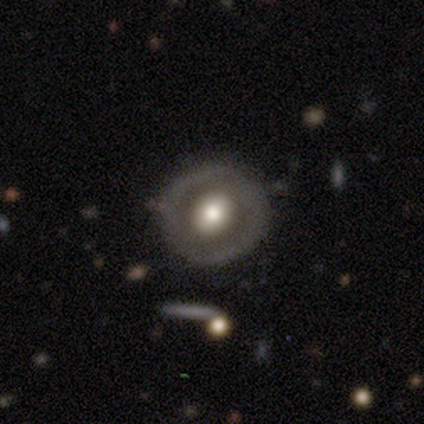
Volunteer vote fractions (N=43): Q: Smooth or featured?
A: featured or disk (53%); runner-up: smooth (42%)
Q: Edge-on disk?
A: no (100%)
Q: Bar?
A: no (57%); runner-up: weak (39%)
Q: Spiral arms?
A: no (83%); runner-up: yes (17%)
Q: Bulge size?
A: moderate (48%); runner-up: large (43%)
Q: Merging?
A: none (76%); runner-up: minor disturbance (17%)